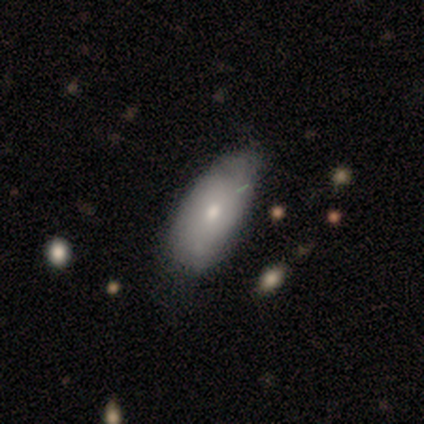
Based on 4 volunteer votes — This is likely a smooth galaxy (75%). How rounded: clearly in between (100%). Merging: likely none (67%).